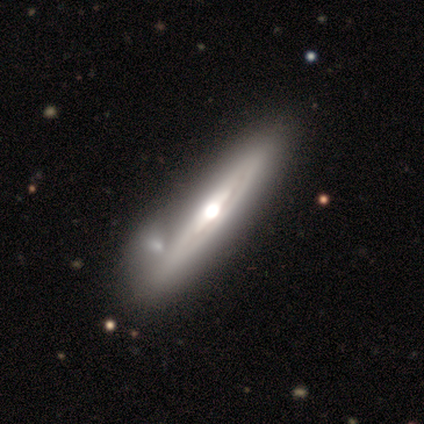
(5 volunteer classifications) This appears to be a featured or disk galaxy (100%) viewed edge-on (60%) with a rounded central bulge (100%). Merging: none (60%).